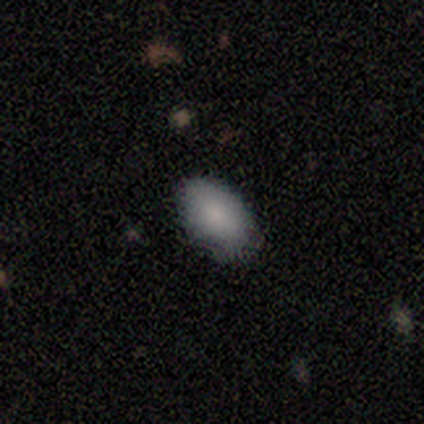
Morphology: type=smooth (80%); roundness=in between (100%); merging=none (60%).